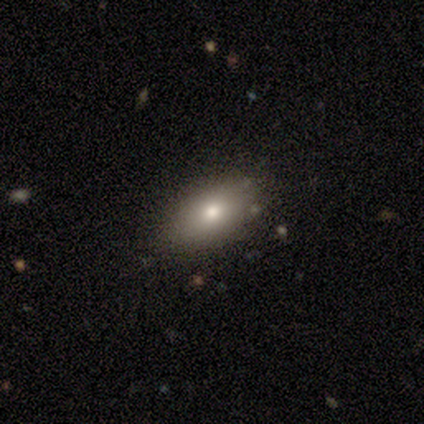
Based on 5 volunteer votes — A smooth galaxy with no disk features (80%) that is in between round and cigar-shaped (75%). Merging: none (100%).